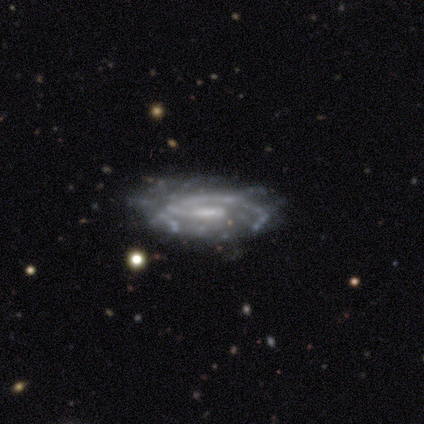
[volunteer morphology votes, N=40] type=featured or disk (88%); edge-on=no (94%); bar=weak (55%); spiral arms=yes (97%); winding=medium (66%); arm count=1 (53%); bulge=small (42%); merging=none (74%).